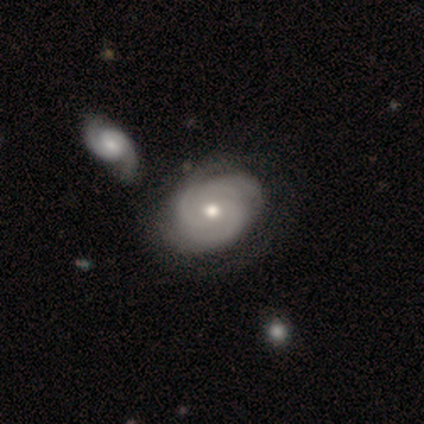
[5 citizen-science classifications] Morphology: type=featured or disk (100%); edge-on=no (100%); bar=no (80%); spiral arms=yes (100%); winding=tight (80%); arm count=3 (60%); bulge=moderate (100%); merging=none (60%).